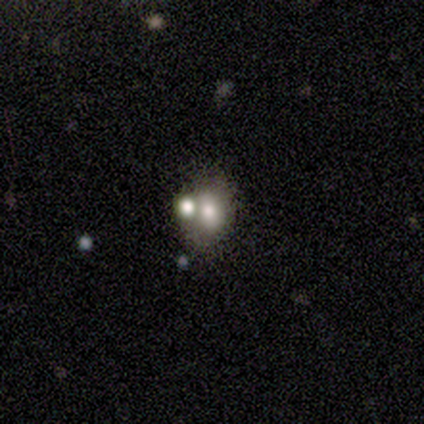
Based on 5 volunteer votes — Morphology: type=featured or disk (60%); edge-on=no (100%); bar=no (67%); spiral arms=no (67%); bulge=moderate (100%); merging=none (60%).